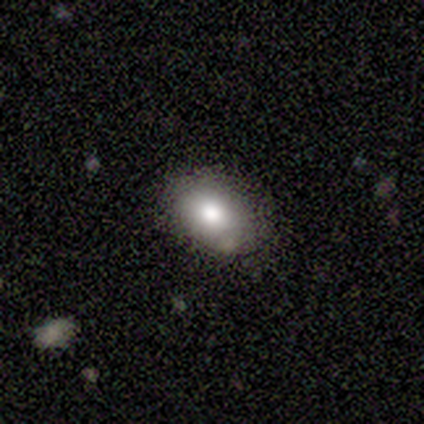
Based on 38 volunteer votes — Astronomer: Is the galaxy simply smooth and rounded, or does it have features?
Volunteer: smooth — 84%.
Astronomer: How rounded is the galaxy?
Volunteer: in between — 91%.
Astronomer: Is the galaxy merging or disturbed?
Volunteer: none — 82%.